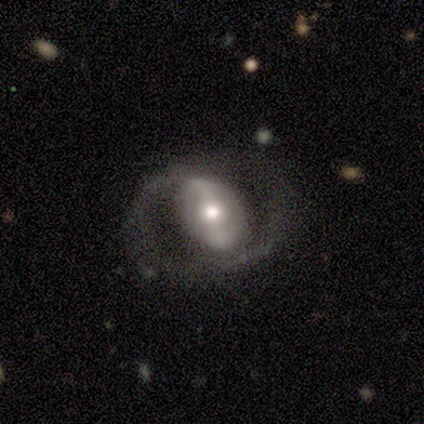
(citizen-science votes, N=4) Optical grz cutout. It shows a featured or disk galaxy (75%) with a strong bar (50%, tied with weak), 1 (50%, tied with 2) tight (50%, tied with loose) spiral arms (100%) and a moderate central bulge (50%, tied with small). Merging: major disturbance (50%).